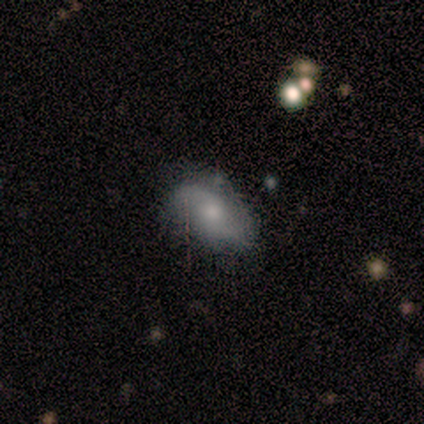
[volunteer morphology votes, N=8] smooth_or_featured: featured or disk (p=0.75) [alt: smooth p=0.25]
disk_edge_on: no (p=1.00)
bar: no (p=0.67) [alt: weak p=0.33]
has_spiral_arms: yes (p=1.00)
spiral_winding: loose (p=0.50) [alt: medium p=0.33]
spiral_arm_count: 2 (p=1.00)
bulge_size: moderate (p=0.67) [alt: small p=0.17]
merging: none (p=0.75) [alt: minor disturbance p=0.12]